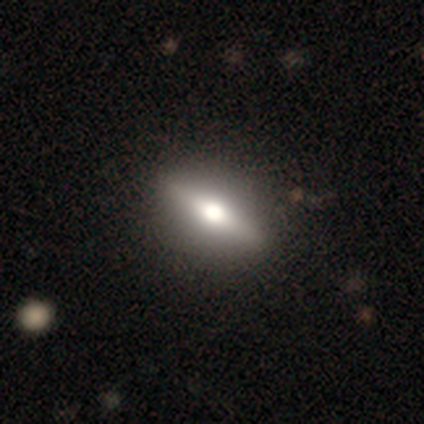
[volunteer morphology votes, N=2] A featured or disk galaxy (50%, tied with star or artifact) with a strong bar (100%), no spiral arms (100%) and a large central bulge (100%).

Vote fractions:
- Smooth or featured? featured or disk: 50% (tied) / star or artifact: 50% (tied) / smooth: 0%
- Edge-on disk? no: 100% / yes: 0%
- Bar? strong: 100% / weak: 0% / no: 0%
- Spiral arms? no: 100% / yes: 0%
- Bulge size? large: 100% / dominant: 0% / moderate: 0% / small: 0% / none: 0%
- Merging? none: 100% / minor disturbance: 0% / major disturbance: 0% / merger: 0%